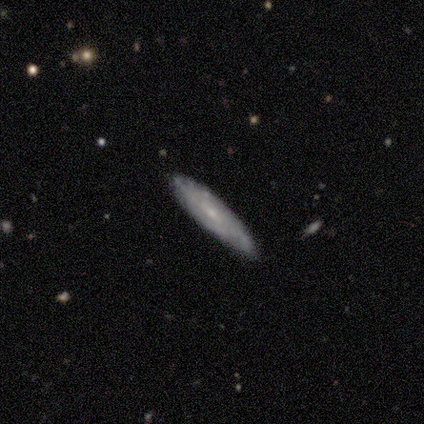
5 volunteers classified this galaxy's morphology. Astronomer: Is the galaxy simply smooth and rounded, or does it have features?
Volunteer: smooth — 60% (runner-up: featured or disk, 40%).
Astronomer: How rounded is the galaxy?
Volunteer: cigar-shaped — 67%.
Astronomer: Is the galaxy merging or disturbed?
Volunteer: none — 100%.